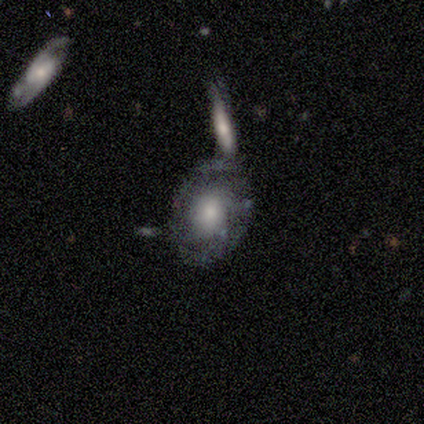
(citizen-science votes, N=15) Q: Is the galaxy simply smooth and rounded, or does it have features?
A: featured or disk — 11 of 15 (73%).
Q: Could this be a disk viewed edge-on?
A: no — 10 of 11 (91%).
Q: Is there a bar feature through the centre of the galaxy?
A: no — 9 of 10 (90%).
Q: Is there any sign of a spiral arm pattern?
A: yes — 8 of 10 (80%).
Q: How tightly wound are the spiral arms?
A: tight — 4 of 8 (50%).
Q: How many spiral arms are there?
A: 2 — 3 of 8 (38%).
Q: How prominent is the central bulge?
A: moderate — 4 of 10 (40%).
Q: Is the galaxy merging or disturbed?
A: none — 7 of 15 (47%).